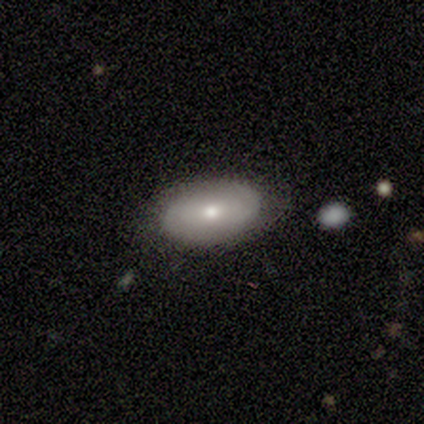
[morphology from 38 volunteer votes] Smooth or featured: smooth — 53% (featured or disk — 42%)
How rounded: in between — 85% (round — 15%)
Merging: none — 78% (minor disturbance — 8%)